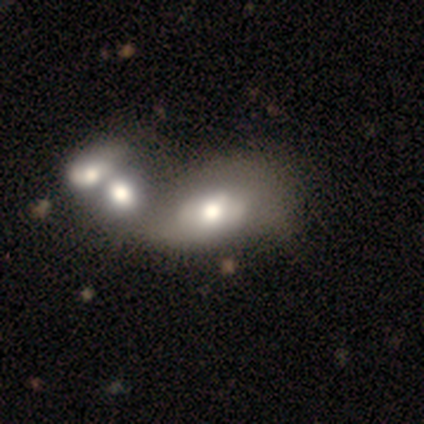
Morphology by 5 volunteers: smooth-or-featured: smooth: 80% | featured or disk: 20% | star or artifact: 0%
  how-rounded: round: 50% (tied) | in between: 50% (tied) | cigar-shaped: 0%
  merging: merger: 60% | none: 20% | minor disturbance: 20% | major disturbance: 0%